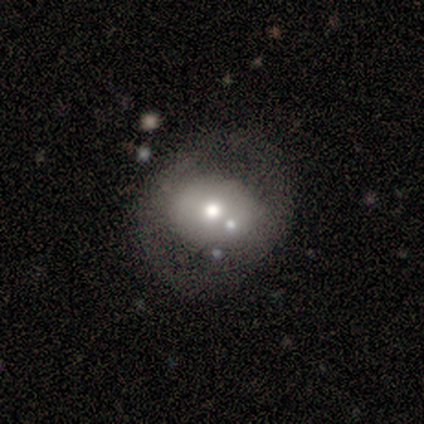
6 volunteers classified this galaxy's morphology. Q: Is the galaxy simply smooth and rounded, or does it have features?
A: featured or disk — 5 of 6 (83%).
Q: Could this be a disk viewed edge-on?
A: no — 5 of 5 (100%).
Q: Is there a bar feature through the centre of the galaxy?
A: no — 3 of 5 (60%).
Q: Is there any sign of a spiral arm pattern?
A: no — 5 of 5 (100%).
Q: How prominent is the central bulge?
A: small — 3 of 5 (60%).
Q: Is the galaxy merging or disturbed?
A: none — 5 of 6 (83%).